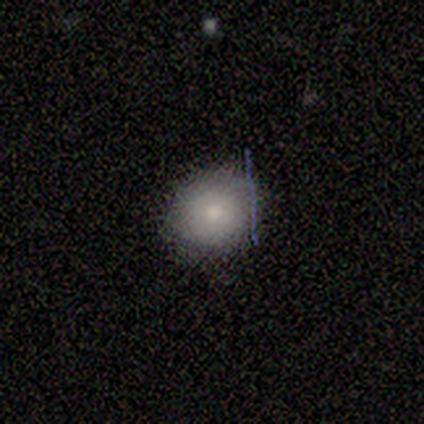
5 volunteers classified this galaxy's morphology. This is likely a smooth galaxy (60%). How rounded: clearly round (100%). Merging: likely none (60%).